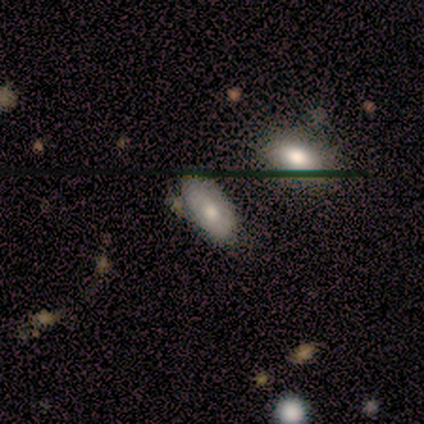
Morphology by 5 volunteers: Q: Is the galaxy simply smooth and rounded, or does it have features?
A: smooth — 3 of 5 (60%).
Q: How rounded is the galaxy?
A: in between — 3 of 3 (100%).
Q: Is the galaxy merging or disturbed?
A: none — 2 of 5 (40%, tied with minor disturbance).